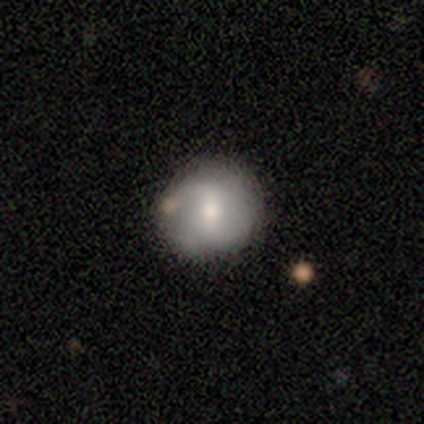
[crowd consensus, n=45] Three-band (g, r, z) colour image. It shows a featured or disk galaxy (56%) with a weak bar (48%), 2 (90%) medium (50%) spiral arms (80%) and a moderate central bulge (52%). Merging: none (82%).